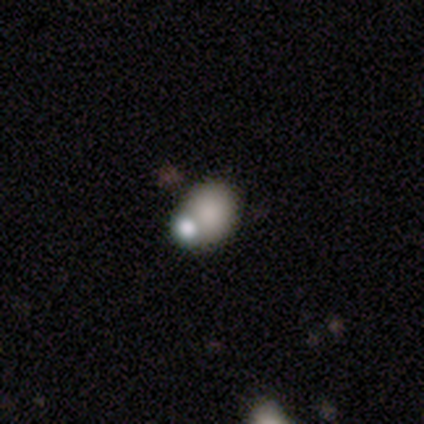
Overall: smooth (80%). How rounded: round (100%). Merging: merger (60%; none 20%).